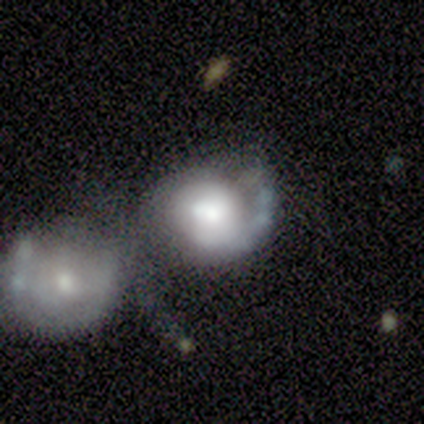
Q: Smooth or featured?
A: featured or disk (60%); runner-up: smooth (20%)
Q: Edge-on disk?
A: no (100%)
Q: Bar?
A: no (100%)
Q: Spiral arms?
A: yes (100%)
Q: Spiral winding?
A: tight (33%); tied with: medium (33%); loose (33%)
Q: Spiral arm count?
A: 2 (67%); runner-up: 1 (33%)
Q: Bulge size?
A: large (67%); runner-up: none (33%)
Q: Merging?
A: merger (75%); runner-up: minor disturbance (25%)